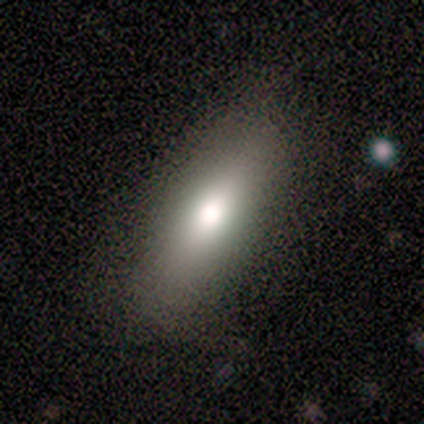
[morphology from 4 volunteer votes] Overall: smooth (100%). How rounded: in between (100%). Merging: none (100%).